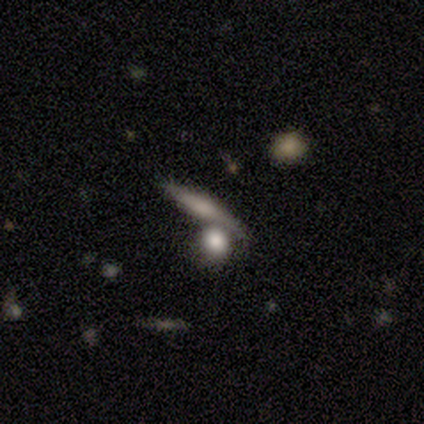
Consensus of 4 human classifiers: A smooth galaxy with no disk features (100%) that is cigar-shaped (75%). Merging: merger (75%).